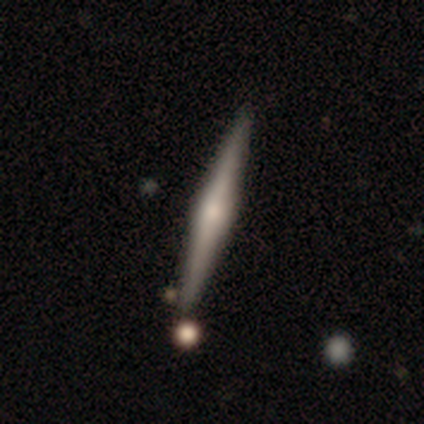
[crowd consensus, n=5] Smooth or featured? 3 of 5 (60%) said smooth. How rounded? 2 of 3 (67%) said cigar-shaped. Merging? 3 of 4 (75%) said none.